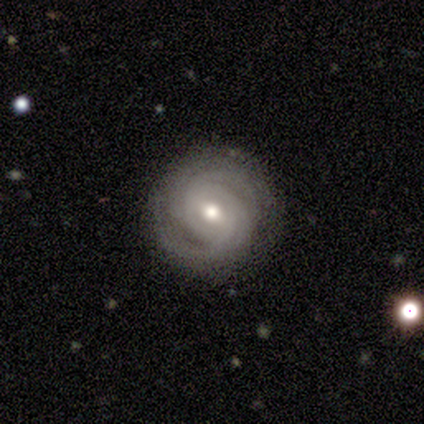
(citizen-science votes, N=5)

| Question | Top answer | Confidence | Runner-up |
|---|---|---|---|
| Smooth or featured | featured or disk | 80% | smooth (20%) |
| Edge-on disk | no | 100% | — |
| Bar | weak | 75% | strong (25%) |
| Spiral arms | yes | 100% | — |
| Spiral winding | tight | 75% | medium (25%) |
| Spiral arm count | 2 | 50% | 3 (25%) |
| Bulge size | moderate | 100% | — |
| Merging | none | 100% | — |